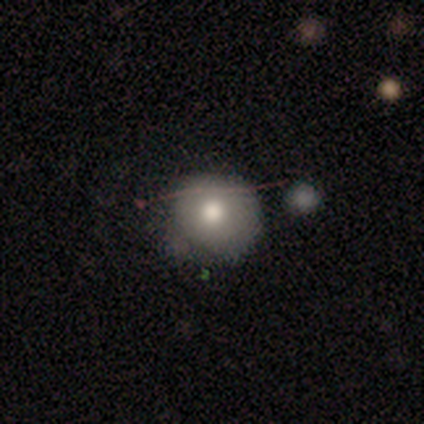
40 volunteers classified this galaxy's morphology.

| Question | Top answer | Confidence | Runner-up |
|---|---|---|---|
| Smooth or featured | smooth | 50% | featured or disk (35%) |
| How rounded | round | 100% | — |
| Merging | none | 71% | minor disturbance (26%) |